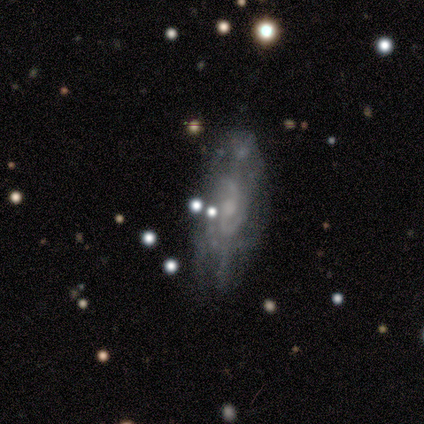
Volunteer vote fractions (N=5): smooth_or_featured: featured or disk (p=0.80) [alt: smooth p=0.20]
disk_edge_on: no (p=1.00)
bar: weak (p=0.50) [alt: strong p=0.25]
has_spiral_arms: yes (p=1.00)
spiral_winding: tight (p=0.75) [alt: medium p=0.25]
spiral_arm_count: 2 (p=0.50) [tied with: can't tell p=0.50]
bulge_size: moderate (p=0.50) [tied with: small p=0.50]
merging: none (p=1.00)